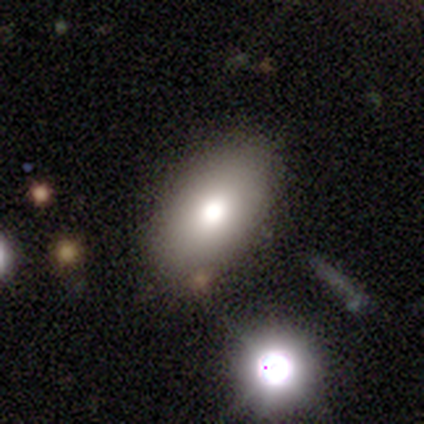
A smooth galaxy with no disk features (83%) that is in between round and cigar-shaped (80%). Merging: none (67%).